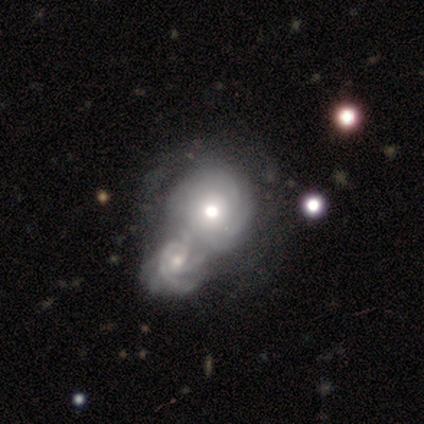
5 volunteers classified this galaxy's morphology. A featured or disk galaxy (100%) with no bar (100%), tight (75%) spiral arms (80%) and a moderate central bulge (80%).

Vote fractions:
- Smooth or featured? featured or disk: 100% / smooth: 0% / star or artifact: 0%
- Edge-on disk? no: 100% / yes: 0%
- Bar? no: 100% / strong: 0% / weak: 0%
- Spiral arms? yes: 80% / no: 20%
- Spiral winding? tight: 75% / medium: 25% / loose: 0%
- Spiral arm count? can't tell: 100% / 1: 0% / 2: 0% / 3: 0% / 4: 0% / more than 4: 0%
- Bulge size? moderate: 80% / large: 20% / dominant: 0% / small: 0% / none: 0%
- Merging? merger: 100% / none: 0% / minor disturbance: 0% / major disturbance: 0%